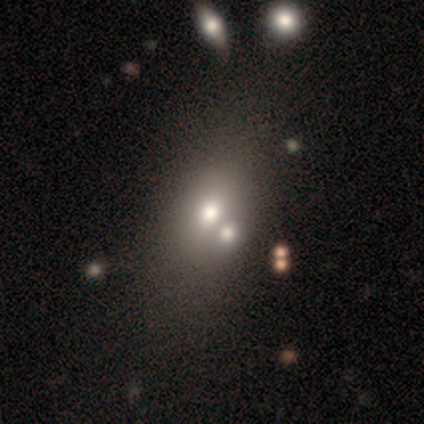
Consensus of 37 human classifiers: This appears to be a smooth galaxy with no disk features (62%) that is in between round and cigar-shaped (74%). Merging: none (46%).